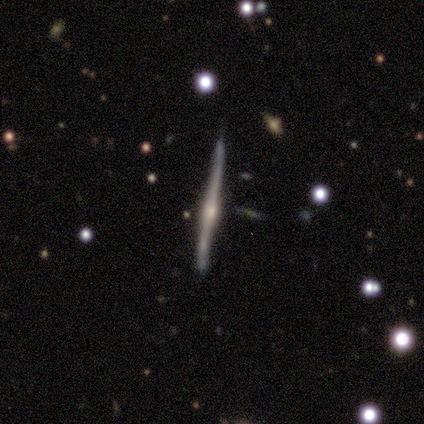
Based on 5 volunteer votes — Smooth or featured: featured or disk — 80% (star or artifact — 20%)
Edge-on disk: yes — 100%
Edge-on bulge: rounded — 100%
Merging: none — 50% (tied with minor disturbance — 50%)